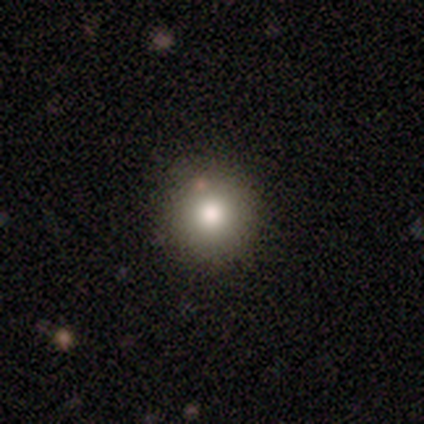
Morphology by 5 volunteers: Smooth or featured? smooth (60%)
How rounded? round (100%)
Merging? none (75%)